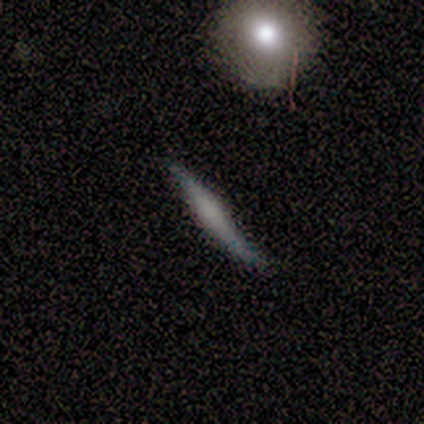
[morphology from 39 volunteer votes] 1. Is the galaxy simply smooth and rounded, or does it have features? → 49% smooth (tied), 49% featured or disk (tied), 3% star or artifact.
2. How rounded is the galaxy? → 95% cigar-shaped, 5% in between, 0% round.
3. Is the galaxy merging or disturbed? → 84% none, 13% minor disturbance, 3% major disturbance, 0% merger.